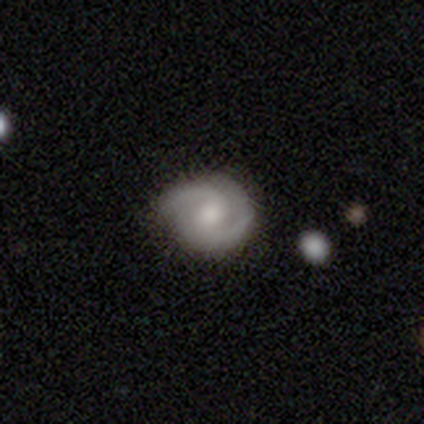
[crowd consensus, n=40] Smooth or featured: featured or disk — 75% (smooth — 25%)
Edge-on disk: no — 100%
Bar: weak — 50% (no — 40%)
Spiral arms: yes — 100%
Spiral winding: medium — 40% (tight — 33%)
Spiral arm count: 2 — 93% (1 — 3%)
Bulge size: moderate — 47% (small — 40%)
Merging: none — 65% (minor disturbance — 30%)